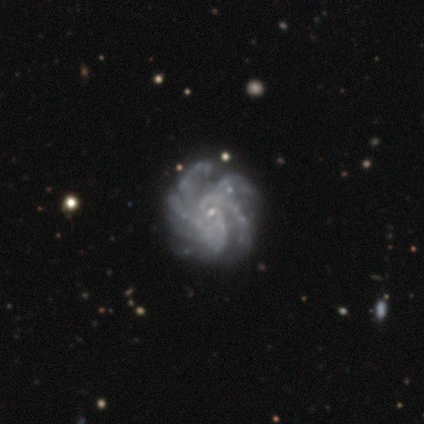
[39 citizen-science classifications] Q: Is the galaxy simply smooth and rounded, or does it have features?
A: featured or disk — 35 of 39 (90%).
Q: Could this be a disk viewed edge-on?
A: no — 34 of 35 (97%).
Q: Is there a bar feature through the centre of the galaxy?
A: no — 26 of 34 (76%).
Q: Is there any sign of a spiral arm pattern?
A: yes — 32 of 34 (94%).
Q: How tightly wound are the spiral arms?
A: medium — 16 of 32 (50%).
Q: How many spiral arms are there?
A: more than 4 — 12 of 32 (38%).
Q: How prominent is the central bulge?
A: small — 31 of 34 (91%).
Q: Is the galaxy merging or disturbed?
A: none — 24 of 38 (63%).